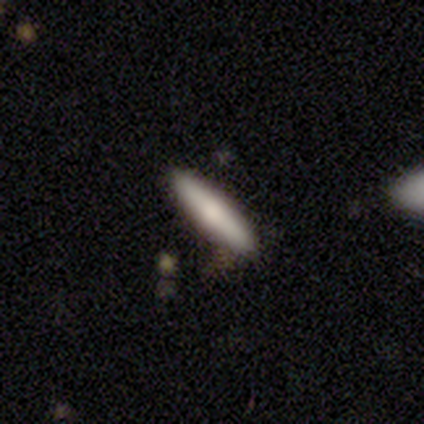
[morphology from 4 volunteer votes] smooth_or_featured: smooth (p=1.00)
how_rounded: cigar-shaped (p=0.75) [alt: in between p=0.25]
merging: none (p=0.75) [alt: minor disturbance p=0.25]